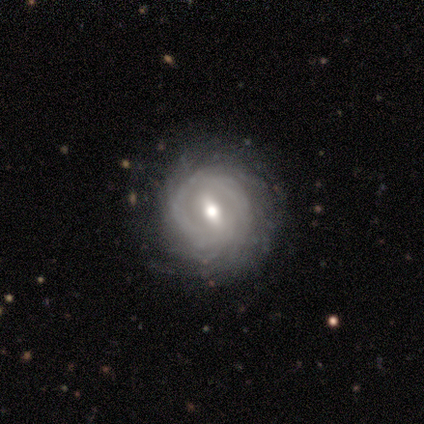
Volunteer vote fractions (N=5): smooth_or_featured: smooth (p=0.40) [tied with: featured or disk p=0.40]
how_rounded: round (p=1.00)
merging: none (p=1.00)